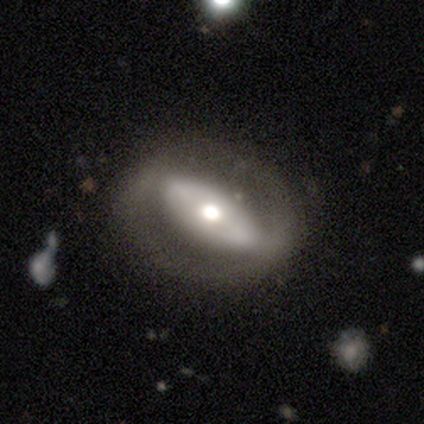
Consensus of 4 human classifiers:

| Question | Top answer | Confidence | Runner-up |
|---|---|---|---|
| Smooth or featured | featured or disk | 100% | — |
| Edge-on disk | no | 100% | — |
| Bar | strong | 50% | weak (25%) |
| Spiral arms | yes | 50% | tied: no (50%) |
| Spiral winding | medium | 50% | tied: loose (50%) |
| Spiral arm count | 2 | 100% | — |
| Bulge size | moderate | 75% | large (25%) |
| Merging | none | 75% | major disturbance (25%) |